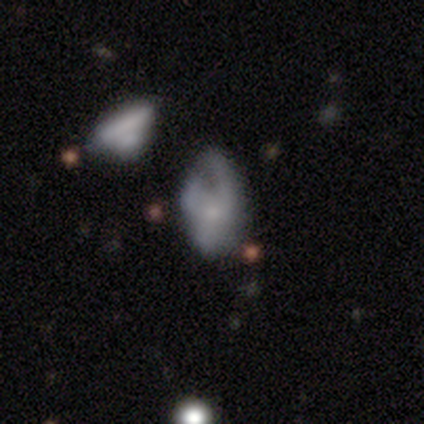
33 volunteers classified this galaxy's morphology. smooth_or_featured: featured or disk (p=0.45) [alt: smooth p=0.39]
disk_edge_on: no (p=1.00)
bar: no (p=1.00)
has_spiral_arms: no (p=0.53) [alt: yes p=0.47]
bulge_size: small (p=0.67) [alt: moderate p=0.33]
merging: minor disturbance (p=0.39) [alt: none p=0.29]